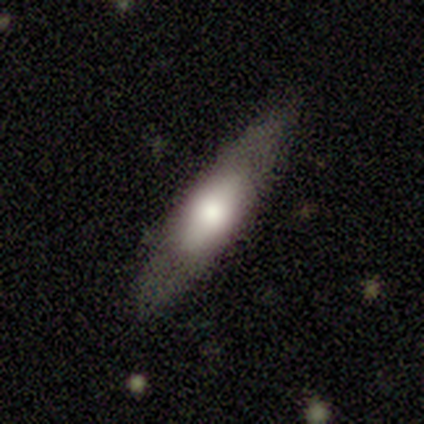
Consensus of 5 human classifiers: smooth_or_featured: featured or disk (p=0.60) [alt: smooth p=0.40]
disk_edge_on: yes (p=0.67) [alt: no p=0.33]
edge_on_bulge: boxy (p=1.00)
merging: none (p=1.00)